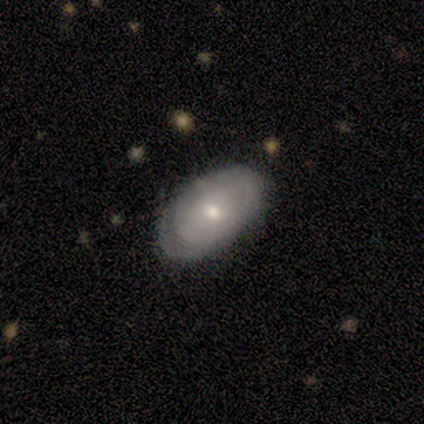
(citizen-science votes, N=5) A featured or disk galaxy (100%) with no bar (100%), no spiral arms (60%) and a moderate central bulge (80%).

Vote fractions:
- Smooth or featured? featured or disk: 100% / smooth: 0% / star or artifact: 0%
- Edge-on disk? no: 100% / yes: 0%
- Bar? no: 100% / strong: 0% / weak: 0%
- Spiral arms? no: 60% / yes: 40%
- Bulge size? moderate: 80% / small: 20% / dominant: 0% / large: 0% / none: 0%
- Merging? none: 60% / minor disturbance: 40% / major disturbance: 0% / merger: 0%